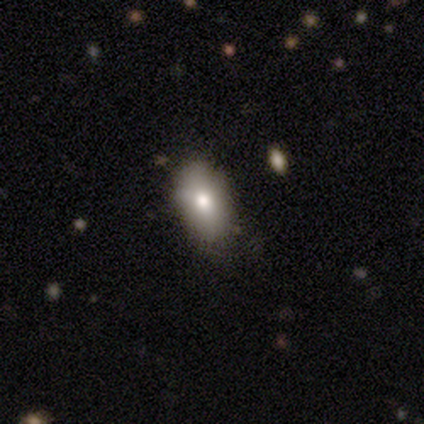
smooth 80%, star or artifact 20%, featured or disk 0%. Down the decision tree: how rounded — in between (75%); merging — none (50%).